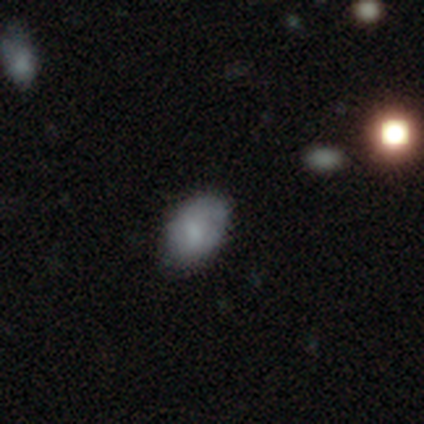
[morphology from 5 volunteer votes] This is clearly a smooth galaxy (100%). How rounded: clearly in between (100%). Merging: clearly none (80%).